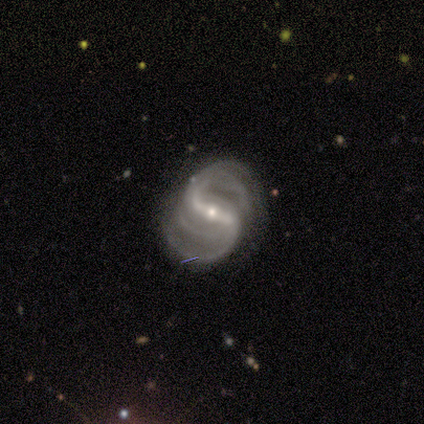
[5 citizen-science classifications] smooth-or-featured: featured or disk: 100% | smooth: 0% | star or artifact: 0%
  disk-edge-on: no: 100% | yes: 0%
    bar: strong: 80% | weak: 20% | no: 0%
    has-spiral-arms: yes: 100% | no: 0%
      spiral-winding: medium: 80% | tight: 20% | loose: 0%
      spiral-arm-count: 2: 60% | 4: 20% | can't tell: 20% | 1: 0% | 3: 0% | more than 4: 0%
    bulge-size: small: 80% | large: 20% | dominant: 0% | moderate: 0% | none: 0%
  merging: none: 80% | minor disturbance: 20% | major disturbance: 0% | merger: 0%